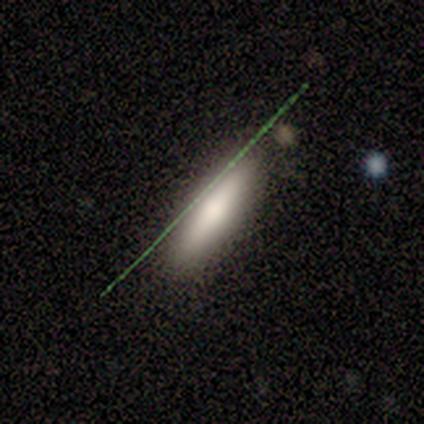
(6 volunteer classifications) A smooth galaxy with no disk features (67%) that is cigar-shaped (75%).

Vote fractions:
- Smooth or featured? smooth: 67% / featured or disk: 17% / star or artifact: 17%
- How rounded? cigar-shaped: 75% / in between: 25% / round: 0%
- Merging? none: 100% / minor disturbance: 0% / major disturbance: 0% / merger: 0%